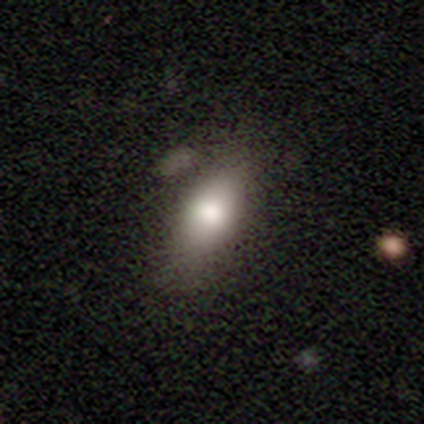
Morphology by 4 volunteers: smooth-or-featured: featured or disk: 50% | smooth: 25% | star or artifact: 25%
  disk-edge-on: yes: 50% (tied) | no: 50% (tied)
    edge-on-bulge: rounded: 100% | boxy: 0% | none: 0%
  merging: minor disturbance: 67% | none: 33% | major disturbance: 0% | merger: 0%